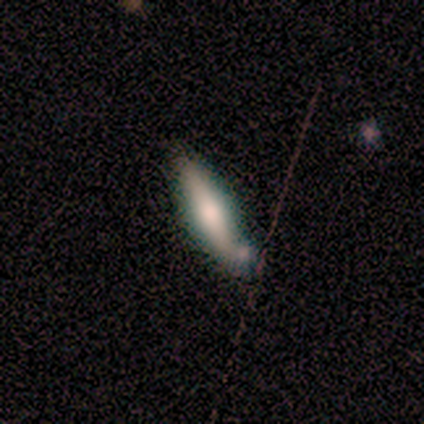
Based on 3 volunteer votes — Smooth or featured? 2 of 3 (67%) said featured or disk. Edge-on disk? 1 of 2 (50%, tied with no) said yes. Edge-on bulge? 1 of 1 (100%) said rounded. Merging? 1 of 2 (50%, tied with merger) said none.